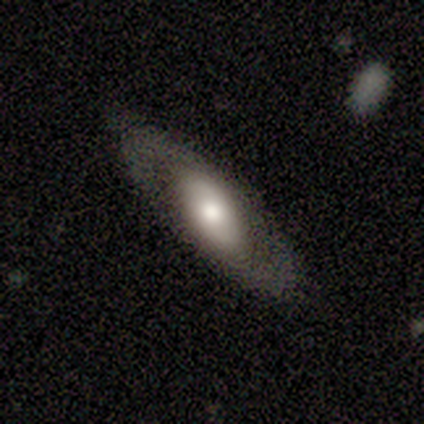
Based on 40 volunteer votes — Smooth or featured? featured or disk (55%)
Edge-on disk? no (59%)
Bar? no (69%)
Spiral arms? yes (54%)
Spiral winding? medium (43%, tied with loose)
Spiral arm count? 2 (86%)
Bulge size? moderate (46%)
Merging? none (79%)